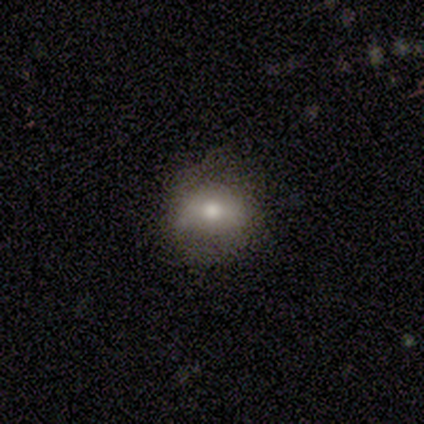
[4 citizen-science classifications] Smooth or featured? featured or disk (75%)
Edge-on disk? no (100%)
Bar? strong (67%)
Spiral arms? no (67%)
Bulge size? large (33%, tied with moderate and none)
Merging? none (50%)